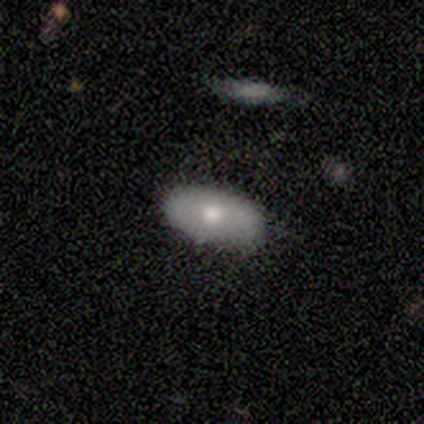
This appears to be a smooth galaxy with no disk features (80%) that is in between round and cigar-shaped (100%). Merging: none (100%).